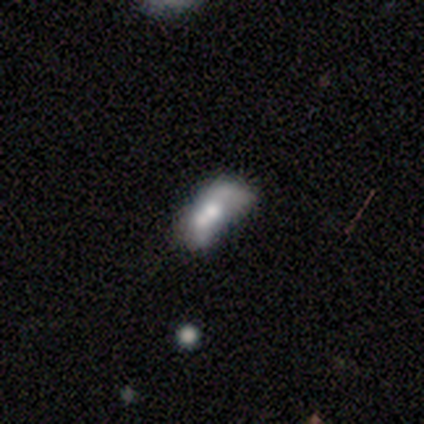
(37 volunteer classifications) Volunteers were most divided on "smooth or featured" (2-way tie): smooth: 43%, featured or disk: 43%, star or artifact: 14%. Remaining: how rounded — in between (75%); merging — merger (38%).